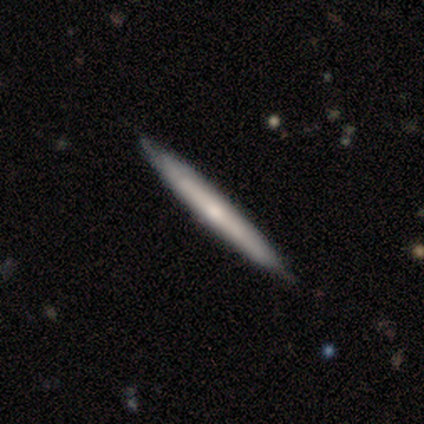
A featured or disk galaxy (60%) viewed edge-on (100%) with a rounded central bulge (67%). Merging: none (100%).